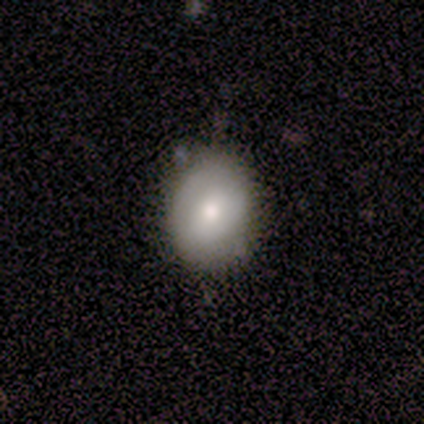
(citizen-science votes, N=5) A smooth galaxy with no disk features (40%, tied with featured or disk) that is round (50%, tied with in between).

Vote fractions:
- Smooth or featured? smooth: 40% (tied) / featured or disk: 40% (tied) / star or artifact: 20%
- How rounded? round: 50% (tied) / in between: 50% (tied) / cigar-shaped: 0%
- Merging? none: 75% / minor disturbance: 25% / major disturbance: 0% / merger: 0%